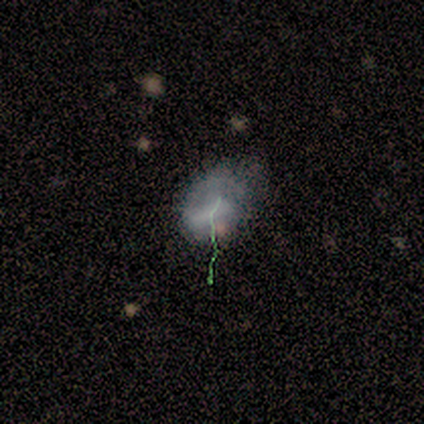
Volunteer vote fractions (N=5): This is clearly a smooth galaxy (80%). How rounded: clearly in between (100%). Merging: possibly minor disturbance (50%).